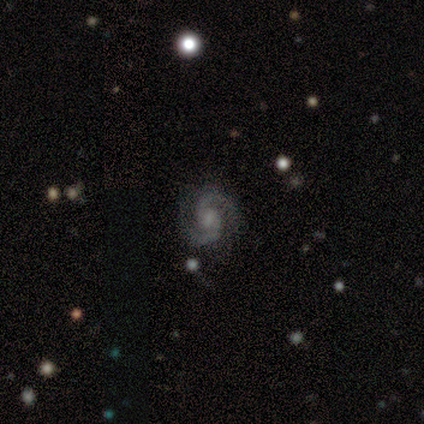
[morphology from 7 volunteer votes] Q: Smooth or featured?
A: featured or disk (100%)
Q: Edge-on disk?
A: no (100%)
Q: Bar?
A: weak (43%); tied with: no (43%)
Q: Spiral arms?
A: yes (86%); runner-up: no (14%)
Q: Spiral winding?
A: medium (83%); runner-up: tight (17%)
Q: Spiral arm count?
A: 2 (83%); runner-up: 3 (17%)
Q: Bulge size?
A: small (57%); runner-up: none (29%)
Q: Merging?
A: none (71%); runner-up: minor disturbance (29%)